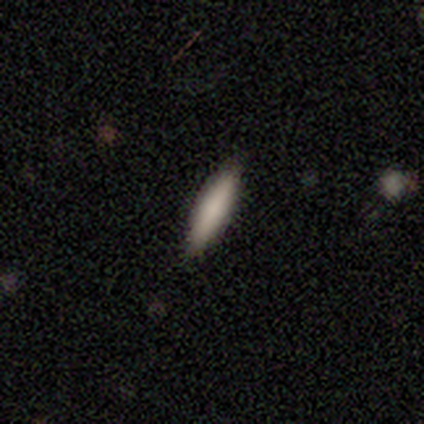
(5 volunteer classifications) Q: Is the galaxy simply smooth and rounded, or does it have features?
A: smooth — 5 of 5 (100%).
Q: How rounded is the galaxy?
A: cigar-shaped — 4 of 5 (80%).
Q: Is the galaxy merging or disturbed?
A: none — 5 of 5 (100%).